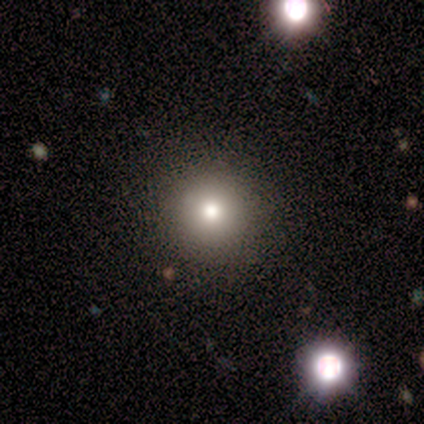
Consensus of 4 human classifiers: A star or artifact, not a galaxy (50%).

Vote fractions:
- Smooth or featured? star or artifact: 50% / smooth: 25% / featured or disk: 25%